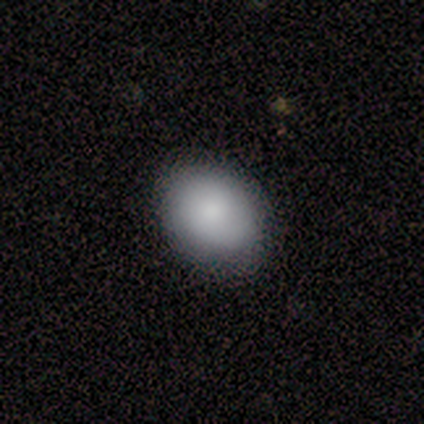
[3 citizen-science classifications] A smooth galaxy with no disk features (100%) that is in between round and cigar-shaped (67%).

Vote fractions:
- Smooth or featured? smooth: 100% / featured or disk: 0% / star or artifact: 0%
- How rounded? in between: 67% / round: 33% / cigar-shaped: 0%
- Merging? none: 100% / minor disturbance: 0% / major disturbance: 0% / merger: 0%